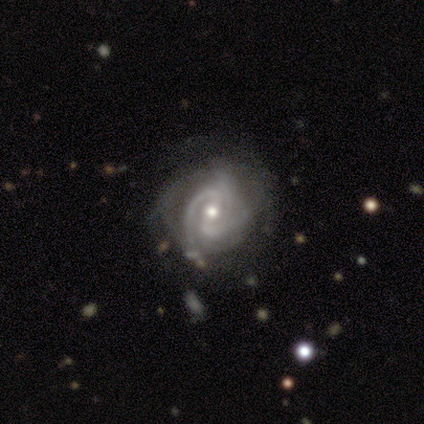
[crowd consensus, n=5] This is clearly a featured or disk galaxy (100%). It is clearly not viewed edge-on (100%). Bar: marginally weak (40%, tied with no). Spiral arm pattern: clearly yes (100%). Spiral arm count: clearly 2 (80%). Spiral winding: likely tight (60%). Central bulge: likely small (60%). Merging: clearly none (80%).